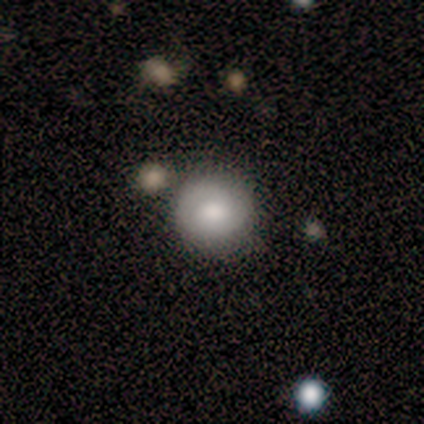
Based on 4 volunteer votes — Smooth or featured: smooth — 75% (featured or disk — 25%)
How rounded: round — 100%
Merging: none — 50% (minor disturbance — 25%)